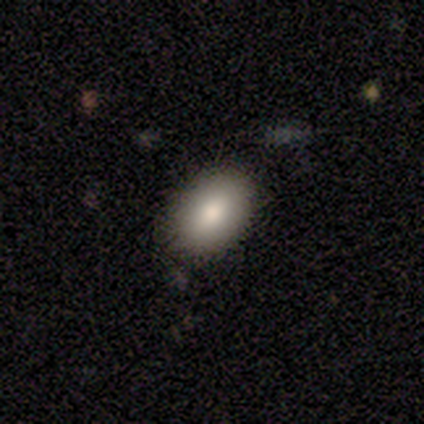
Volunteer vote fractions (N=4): Volunteers were most divided on "merging" (2-way tie): none: 50%, minor disturbance: 50%, major disturbance: 0%, merger: 0%. More confident: how rounded — in between (100%); smooth or featured — smooth (75%).